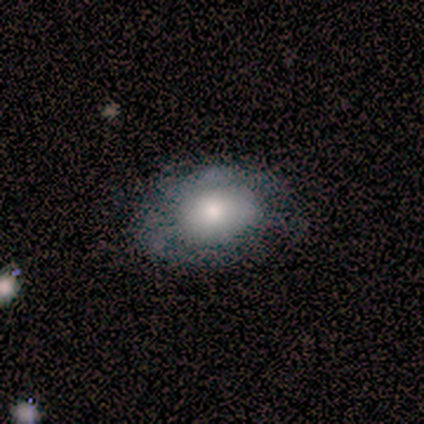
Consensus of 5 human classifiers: A smooth galaxy with no disk features (80%) that is in between round and cigar-shaped (100%). Merging: none (100%).